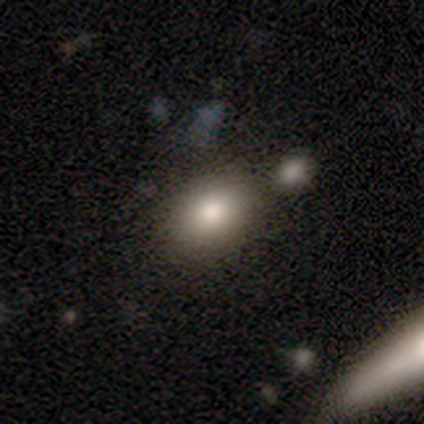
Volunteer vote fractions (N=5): smooth 100%, featured or disk 0%, star or artifact 0%. Down the decision tree: how rounded — in between (80%); merging — none (80%).